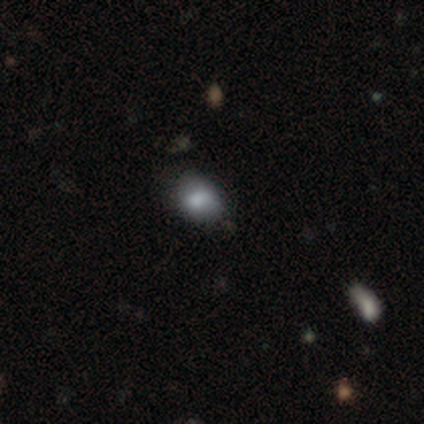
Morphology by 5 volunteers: Q: Smooth or featured?
A: smooth (40%); tied with: star or artifact (40%)
Q: How rounded?
A: round (50%); tied with: in between (50%)
Q: Merging?
A: minor disturbance (67%); runner-up: merger (33%)